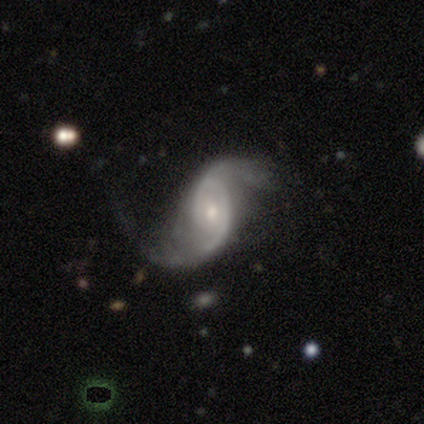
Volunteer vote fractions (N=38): Smooth or featured?
  - featured or disk: 97% *
  - smooth: 3%
  - star or artifact: 0%
Edge-on disk?
  - no: 100% *
  - yes: 0%
Bar?
  - no: 54% *
  - weak: 35%
  - strong: 11%
Spiral arms?
  - yes: 100% *
  - no: 0%
Spiral winding?
  - loose: 46% *
  - medium: 38%
  - tight: 16%
Spiral arm count?
  - 2: 84% *
  - 1: 8%
  - 3: 3%
  - more than 4: 3%
  - can't tell: 3%
  - 4: 0%
Bulge size?
  - small: 59% *
  - moderate: 38%
  - dominant: 3%
  - large: 0%
  - none: 0%
Merging?
  - none: 34% *
  - minor disturbance: 32%
  - major disturbance: 32%
  - merger: 3%